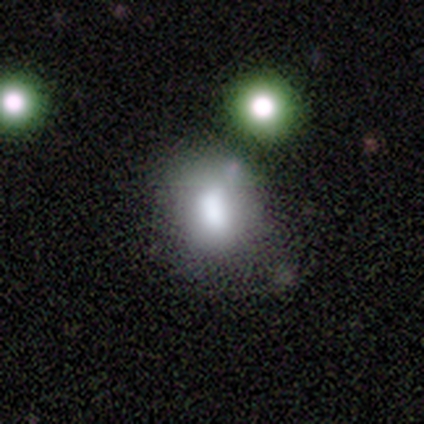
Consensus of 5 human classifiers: smooth_or_featured: smooth (p=0.60) [alt: star or artifact p=0.40]
how_rounded: in between (p=0.67) [alt: round p=0.33]
merging: none (p=0.67) [alt: merger p=0.33]